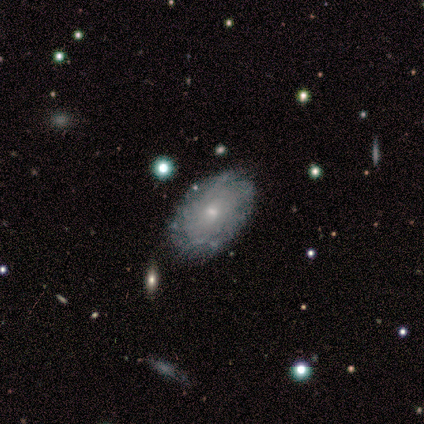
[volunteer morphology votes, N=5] Volunteers were most divided on "smooth or featured": featured or disk: 60%, smooth: 40%, star or artifact: 0%. More confident: edge-on disk — no (100%); bar — no (67%); spiral arms — no (67%); bulge size — moderate (67%); merging — none (60%).